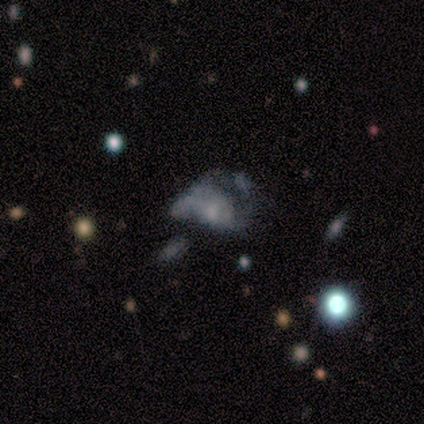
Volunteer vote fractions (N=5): This is clearly a featured or disk galaxy (80%). It is clearly not viewed edge-on (100%). Bar: clearly no (100%). Spiral arm pattern: possibly yes (50%, tied with no). Spiral arm count: possibly 3 (50%, tied with can't tell). Spiral winding: possibly medium (50%, tied with loose). Central bulge: possibly small (50%, tied with none). Merging: clearly major disturbance (100%).